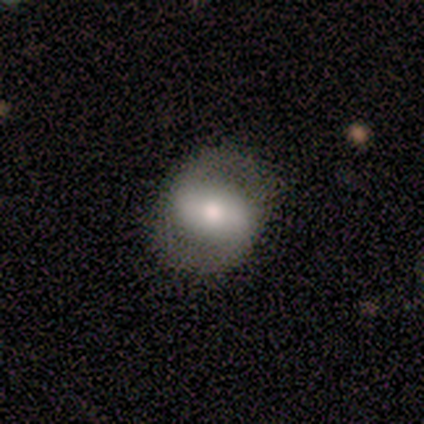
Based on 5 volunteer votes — Volunteers were most divided on "bar" (2-way tie): strong: 50%, weak: 50%, no: 0%. More confident: edge-on disk — no (100%); spiral arms — yes (100%); spiral arm count — 2 (100%); smooth or featured — featured or disk (80%); merging — none (80%); spiral winding — loose (75%); bulge size — moderate (75%).